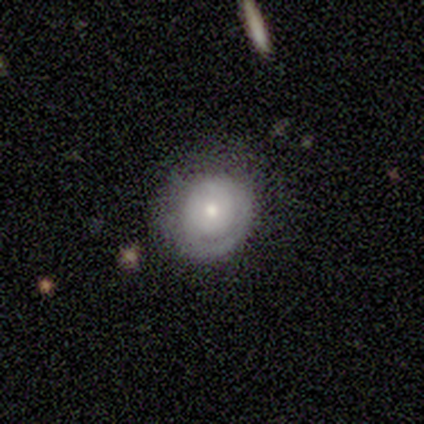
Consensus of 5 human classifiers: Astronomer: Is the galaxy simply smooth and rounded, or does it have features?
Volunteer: featured or disk — 80%.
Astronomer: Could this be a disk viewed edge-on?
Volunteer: no — 100%.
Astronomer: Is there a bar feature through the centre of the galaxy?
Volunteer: no — 100%.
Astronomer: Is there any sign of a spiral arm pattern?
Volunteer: yes — 75%.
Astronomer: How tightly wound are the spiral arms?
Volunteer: tight — 100%.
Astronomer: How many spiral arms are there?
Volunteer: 1 — 67%.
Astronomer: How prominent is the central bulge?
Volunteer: small — 75%.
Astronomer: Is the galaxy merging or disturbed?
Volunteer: none — 60% (runner-up: minor disturbance, 40%).